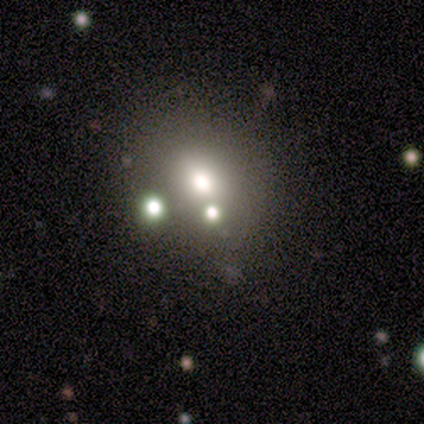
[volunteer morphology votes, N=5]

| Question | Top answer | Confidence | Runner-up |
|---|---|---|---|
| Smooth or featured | smooth | 80% | star or artifact (20%) |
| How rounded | round | 50% | tied: in between (50%) |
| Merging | none | 50% | tied: merger (50%) |